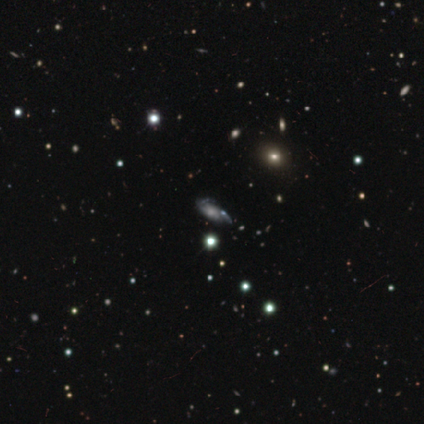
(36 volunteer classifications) This appears to be a star or artifact, not a galaxy (44%).